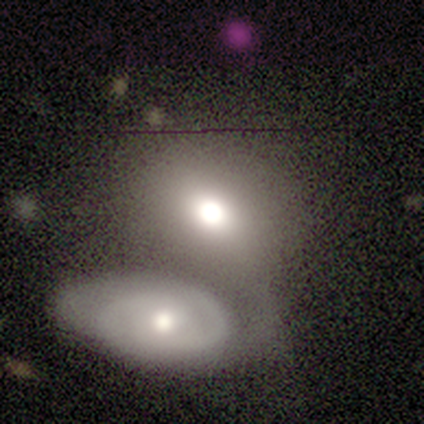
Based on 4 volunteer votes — Smooth or featured? smooth (50%, tied with featured or disk)
How rounded? round (50%, tied with in between)
Merging? merger (75%)